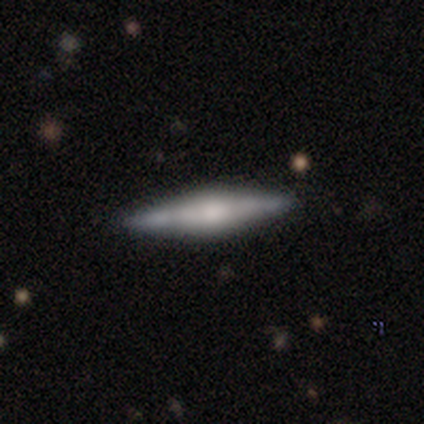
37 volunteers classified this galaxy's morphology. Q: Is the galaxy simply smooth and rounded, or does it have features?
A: featured or disk — 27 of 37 (73%).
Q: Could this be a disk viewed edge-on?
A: yes — 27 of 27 (100%).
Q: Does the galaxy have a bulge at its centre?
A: rounded — 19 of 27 (70%).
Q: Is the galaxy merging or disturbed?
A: none — 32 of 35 (91%).